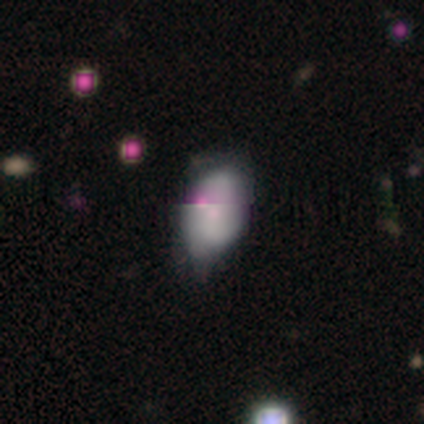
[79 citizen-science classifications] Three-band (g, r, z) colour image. It shows a smooth galaxy with no disk features (56%) that is in between round and cigar-shaped (95%). Merging: minor disturbance (24%).